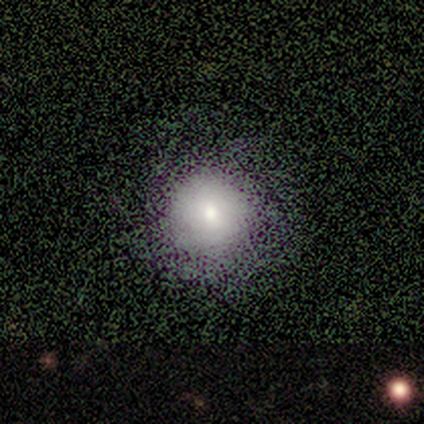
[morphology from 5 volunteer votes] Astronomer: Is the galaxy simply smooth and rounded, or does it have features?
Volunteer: smooth — 40%, tied with star or artifact at 40%.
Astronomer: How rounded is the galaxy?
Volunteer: round — 100%.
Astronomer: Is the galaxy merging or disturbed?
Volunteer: none — 100%.